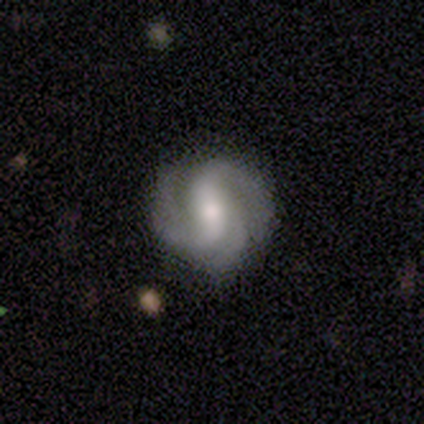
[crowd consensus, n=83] Overall: featured or disk (94%). Edge-on disk: no (97%). Bar: weak (46%; strong 32%). Spiral arms: yes (97%). Spiral arm count: 3 (43%; 2 39%). Spiral winding: medium (46%; tight 34%). Bulge size: moderate (55%; small 38%). Merging: none (83%).